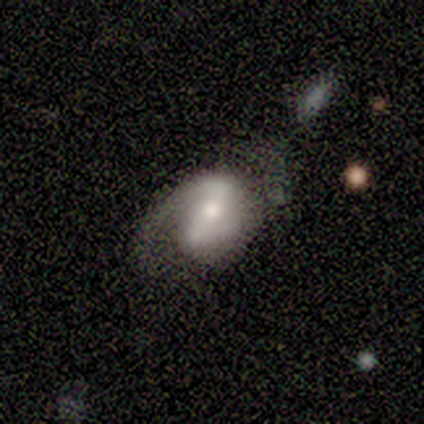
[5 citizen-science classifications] smooth-or-featured: featured or disk: 100% | smooth: 0% | star or artifact: 0%
  disk-edge-on: no: 100% | yes: 0%
    bar: strong: 60% | weak: 20% | no: 20%
    has-spiral-arms: yes: 100% | no: 0%
      spiral-winding: medium: 60% | loose: 40% | tight: 0%
      spiral-arm-count: 2: 100% | 1: 0% | 3: 0% | 4: 0% | more than 4: 0% | can't tell: 0%
    bulge-size: small: 60% | moderate: 40% | dominant: 0% | large: 0% | none: 0%
  merging: none: 60% | minor disturbance: 20% | major disturbance: 20% | merger: 0%